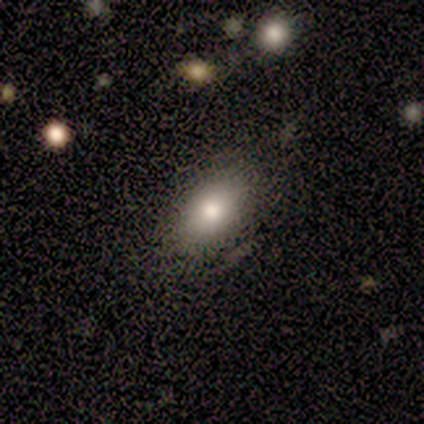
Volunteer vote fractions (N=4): smooth 50% (tied), star or artifact 50% (tied), featured or disk 0%. Down the decision tree: how rounded — in between (100%); merging — none (100%).